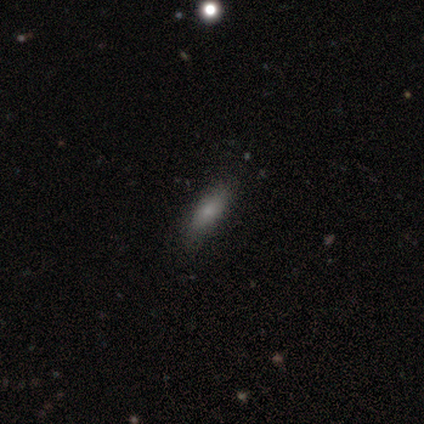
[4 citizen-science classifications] Overall: smooth (75%). How rounded: in between (100%). Merging: minor disturbance (50%; none 25%).